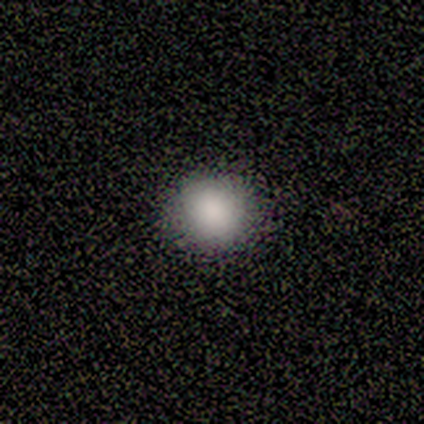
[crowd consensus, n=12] Smooth or featured: smooth — 83% (featured or disk — 8%)
How rounded: round — 80% (in between — 20%)
Merging: none — 100%